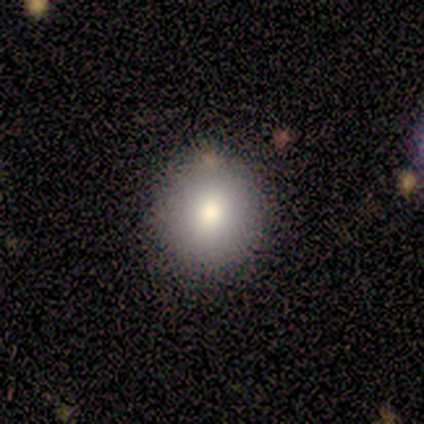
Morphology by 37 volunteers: smooth 70%, featured or disk 16%, star or artifact 14%. Down the decision tree: how rounded — round (88%); merging — none (81%).